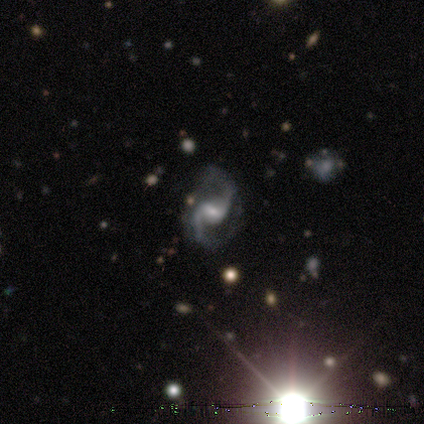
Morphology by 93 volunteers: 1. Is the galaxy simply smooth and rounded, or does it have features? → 90% featured or disk, 8% star or artifact, 2% smooth.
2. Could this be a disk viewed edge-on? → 99% no, 1% yes.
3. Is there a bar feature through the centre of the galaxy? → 59% weak, 22% no, 19% strong.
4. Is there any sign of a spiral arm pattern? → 96% yes, 4% no.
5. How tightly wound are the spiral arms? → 52% loose, 45% medium, 2% tight.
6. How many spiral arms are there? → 96% 2, 2% 1, 1% 3, 0% 4, 0% more than 4, 0% can't tell.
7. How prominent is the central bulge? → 49% small, 34% moderate, 12% large, 4% none, 1% dominant.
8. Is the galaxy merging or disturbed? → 71% none, 23% minor disturbance, 6% major disturbance, 0% merger.